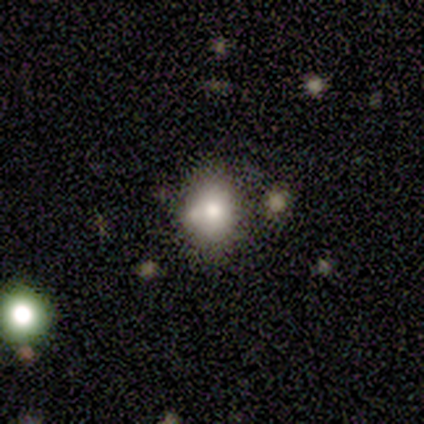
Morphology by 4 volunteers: smooth_or_featured: smooth (p=1.00)
how_rounded: round (p=1.00)
merging: none (p=0.75) [alt: minor disturbance p=0.25]